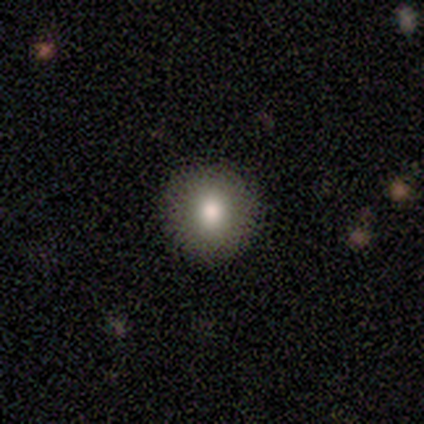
This is clearly a smooth galaxy (80%). How rounded: clearly round (100%). Merging: clearly none (100%).